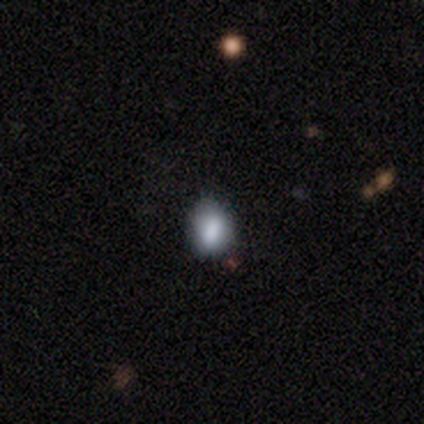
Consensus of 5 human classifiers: Morphology: type=smooth (100%); roundness=in between (100%); merging=minor disturbance (60%).